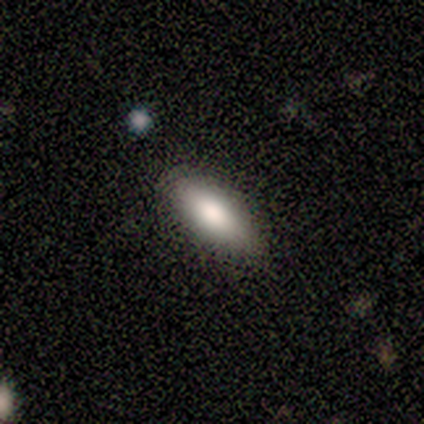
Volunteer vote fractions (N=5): Smooth or featured?
  - smooth: 100% *
  - featured or disk: 0%
  - star or artifact: 0%
How rounded?
  - in between: 100% *
  - round: 0%
  - cigar-shaped: 0%
Merging?
  - none: 100% *
  - minor disturbance: 0%
  - major disturbance: 0%
  - merger: 0%